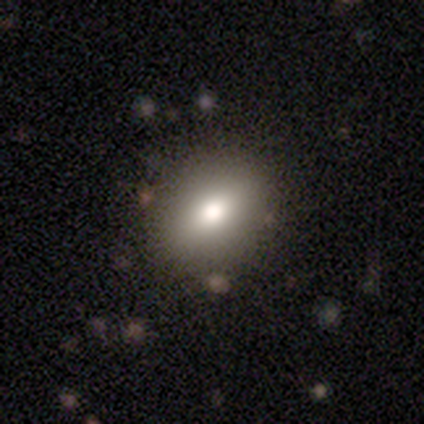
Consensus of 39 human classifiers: smooth_or_featured: smooth (p=0.82) [alt: featured or disk p=0.10]
how_rounded: in between (p=0.69) [alt: round p=0.28]
merging: none (p=0.39) [alt: minor disturbance p=0.11]